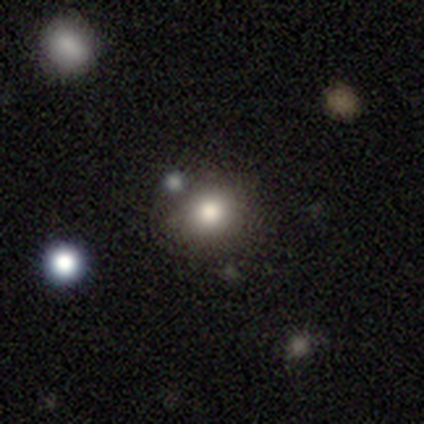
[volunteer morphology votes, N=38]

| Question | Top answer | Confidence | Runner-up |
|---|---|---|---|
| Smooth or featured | smooth | 84% | featured or disk (11%) |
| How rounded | round | 84% | in between (16%) |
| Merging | none | 81% | merger (14%) |